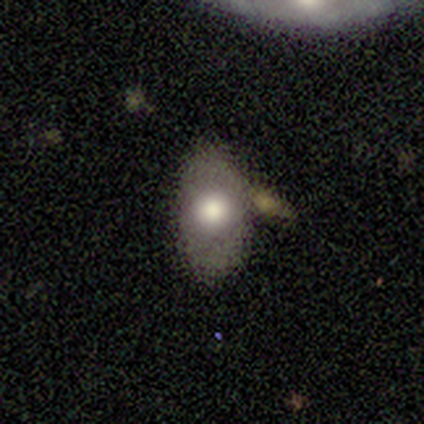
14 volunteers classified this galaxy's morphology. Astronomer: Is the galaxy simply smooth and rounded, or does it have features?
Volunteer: smooth — 79%.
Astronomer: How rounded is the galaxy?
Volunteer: in between — 100%.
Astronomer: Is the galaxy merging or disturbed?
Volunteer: none — 71%.